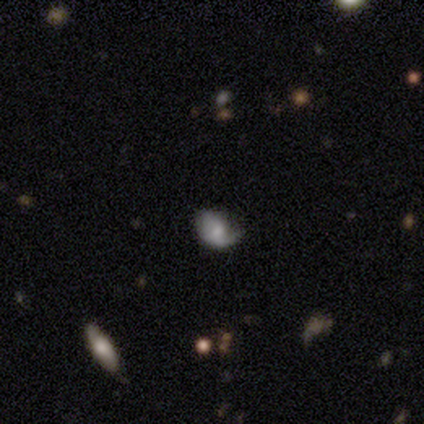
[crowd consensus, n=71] smooth_or_featured: featured or disk (p=0.56) [alt: smooth p=0.30]
disk_edge_on: no (p=0.97) [alt: yes p=0.03]
bar: no (p=0.67) [alt: weak p=0.33]
has_spiral_arms: yes (p=0.74) [alt: no p=0.26]
spiral_winding: loose (p=0.45) [alt: medium p=0.34]
spiral_arm_count: 1 (p=0.62) [alt: 2 p=0.24]
bulge_size: moderate (p=0.44) [alt: small p=0.28]
merging: none (p=0.39) [tied with: minor disturbance p=0.39]